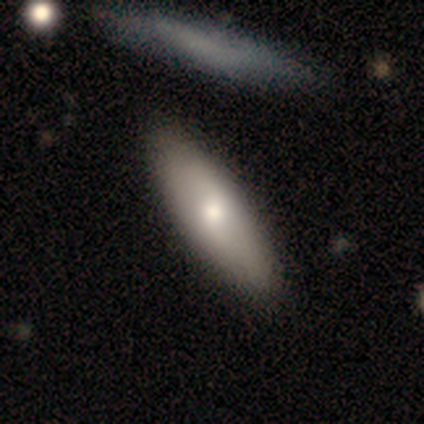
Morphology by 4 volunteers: A smooth galaxy with no disk features (50%) that is cigar-shaped (100%).

Vote fractions:
- Smooth or featured? smooth: 50% / featured or disk: 25% / star or artifact: 25%
- How rounded? cigar-shaped: 100% / round: 0% / in between: 0%
- Merging? none: 67% / minor disturbance: 33% / major disturbance: 0% / merger: 0%